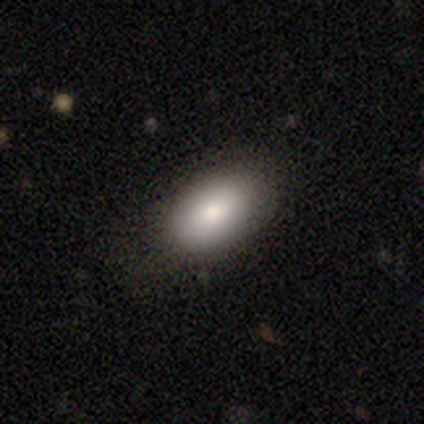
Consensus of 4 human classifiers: smooth 50%, featured or disk 25%, star or artifact 25%. Down the decision tree: how rounded — in between (100%); merging — none (100%).